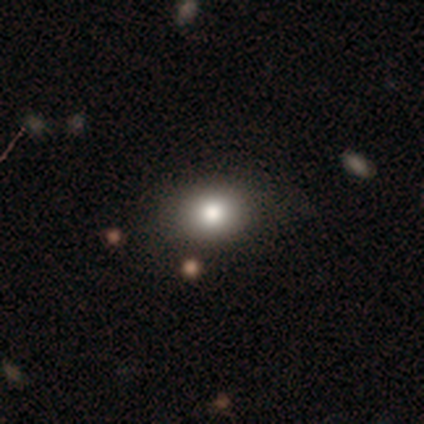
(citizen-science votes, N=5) A smooth galaxy with no disk features (80%) that is round (50%, tied with in between).

Vote fractions:
- Smooth or featured? smooth: 80% / star or artifact: 20% / featured or disk: 0%
- How rounded? round: 50% (tied) / in between: 50% (tied) / cigar-shaped: 0%
- Merging? none: 75% / minor disturbance: 25% / major disturbance: 0% / merger: 0%